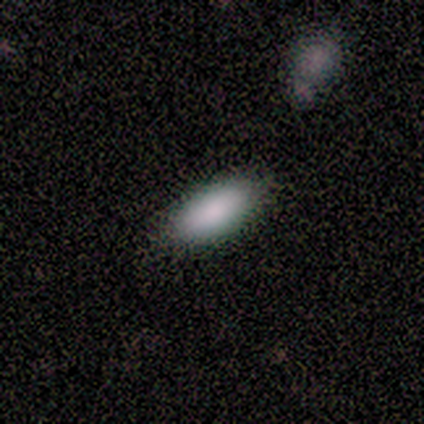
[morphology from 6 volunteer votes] Volunteers were most divided on "merging": none: 83%, minor disturbance: 17%, major disturbance: 0%, merger: 0%. More confident: smooth or featured — smooth (100%); how rounded — in between (100%).